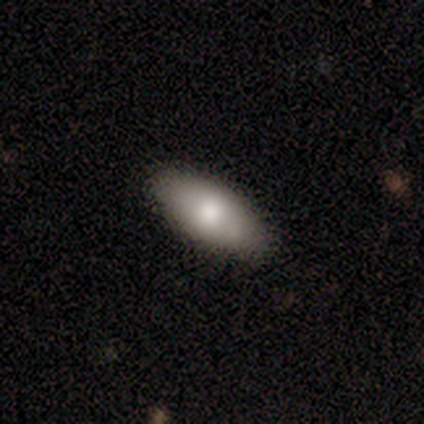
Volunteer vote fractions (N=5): Morphology: type=smooth (80%); roundness=in between (100%); merging=none (100%).